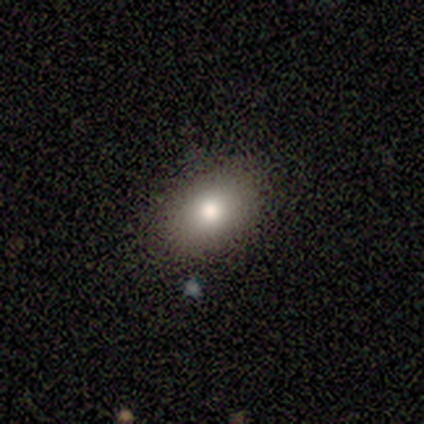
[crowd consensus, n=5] Smooth or featured: smooth — 80% (star or artifact — 20%)
How rounded: in between — 100%
Merging: none — 100%